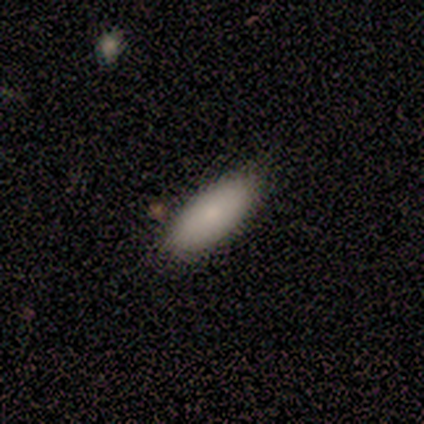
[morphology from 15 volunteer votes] Q: Smooth or featured?
A: smooth (87%); runner-up: featured or disk (13%)
Q: How rounded?
A: in between (69%); runner-up: cigar-shaped (31%)
Q: Merging?
A: none (87%); runner-up: minor disturbance (13%)